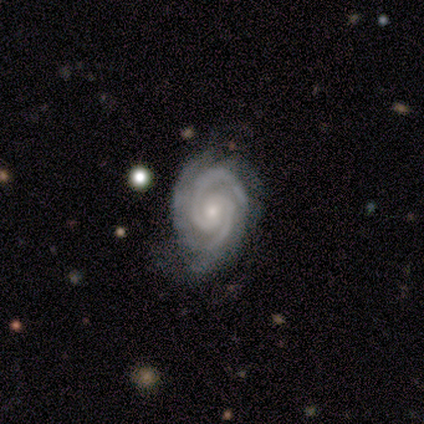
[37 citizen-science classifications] Morphology: type=featured or disk (89%); edge-on=no (100%); bar=no (61%); spiral arms=yes (100%); winding=tight (85%); arm count=2 (58%); bulge=small (76%); merging=none (72%).